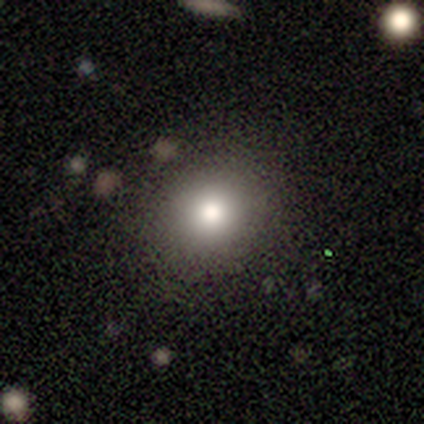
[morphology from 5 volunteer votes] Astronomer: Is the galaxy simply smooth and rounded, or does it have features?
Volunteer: smooth — 40%, tied with star or artifact at 40%.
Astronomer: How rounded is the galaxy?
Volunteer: round — 100%.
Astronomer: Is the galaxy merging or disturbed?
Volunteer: none — 100%.